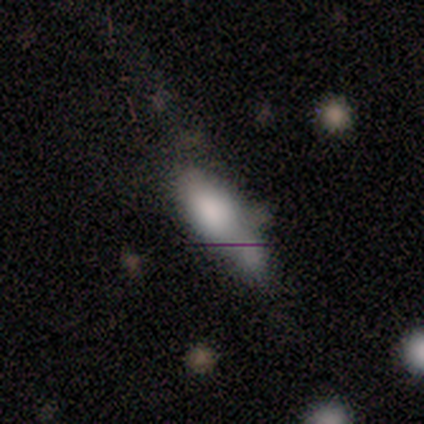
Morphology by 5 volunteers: This appears to be a smooth galaxy with no disk features (60%) that is in between round and cigar-shaped (100%). Merging: none (25%, tied with minor disturbance, major disturbance and merger).